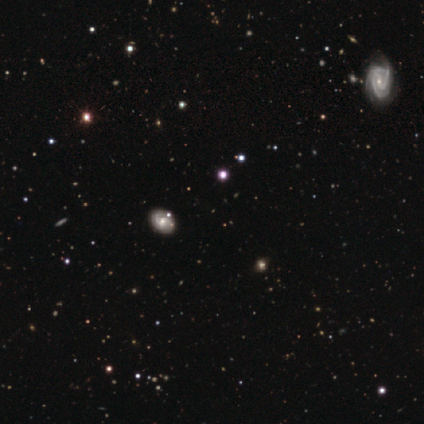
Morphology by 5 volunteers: Smooth or featured? 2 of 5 (40%, tied with star or artifact) said featured or disk. Edge-on disk? 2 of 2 (100%) said no. Bar? 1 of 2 (50%, tied with no) said strong. Spiral arms? 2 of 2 (100%) said yes. Spiral winding? 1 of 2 (50%, tied with medium) said tight. Spiral arm count? 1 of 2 (50%, tied with can't tell) said 3. Bulge size? 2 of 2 (100%) said moderate. Merging? 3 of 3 (100%) said none.